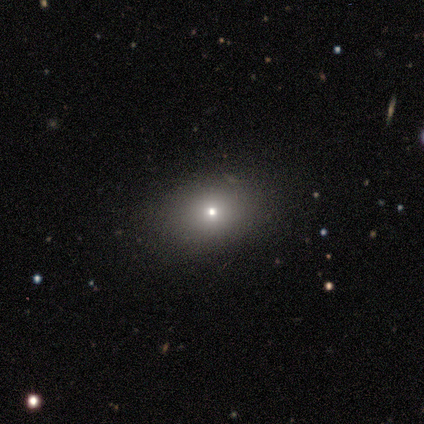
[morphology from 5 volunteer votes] A smooth galaxy with no disk features (40%, tied with star or artifact) that is in between round and cigar-shaped (100%).

Vote fractions:
- Smooth or featured? smooth: 40% (tied) / star or artifact: 40% (tied) / featured or disk: 20%
- How rounded? in between: 100% / round: 0% / cigar-shaped: 0%
- Merging? none: 100% / minor disturbance: 0% / major disturbance: 0% / merger: 0%